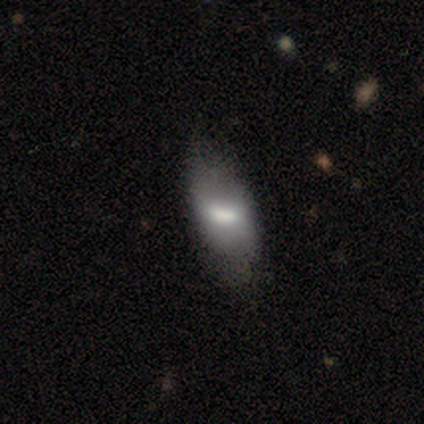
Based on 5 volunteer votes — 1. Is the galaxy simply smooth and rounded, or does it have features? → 60% featured or disk, 40% smooth, 0% star or artifact.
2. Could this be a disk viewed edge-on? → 67% no, 33% yes.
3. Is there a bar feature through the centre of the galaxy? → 50% strong (tied), 50% no (tied), 0% weak.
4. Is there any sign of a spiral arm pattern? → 100% no, 0% yes.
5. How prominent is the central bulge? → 100% moderate, 0% dominant, 0% large, 0% small, 0% none.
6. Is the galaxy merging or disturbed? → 60% minor disturbance, 20% none, 20% merger, 0% major disturbance.